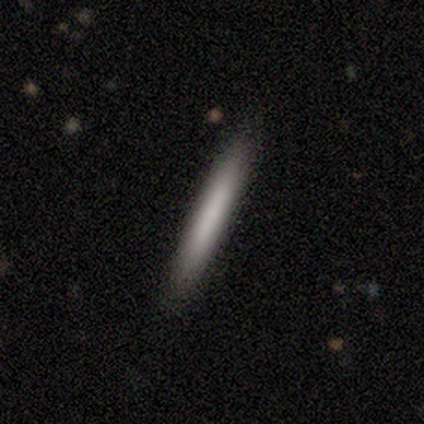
Smooth or featured: smooth — 100%
How rounded: cigar-shaped — 100%
Merging: none — 100%